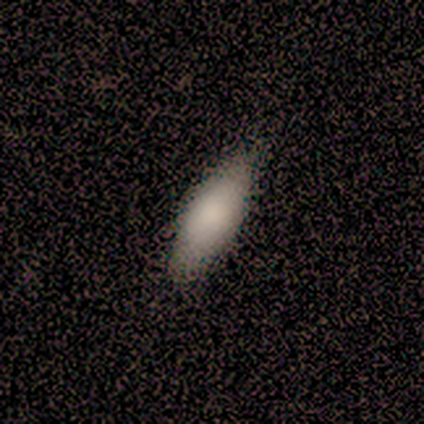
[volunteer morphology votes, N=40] Smooth or featured: smooth — 88% (featured or disk — 8%)
How rounded: in between — 63% (cigar-shaped — 37%)
Merging: none — 71% (minor disturbance — 26%)